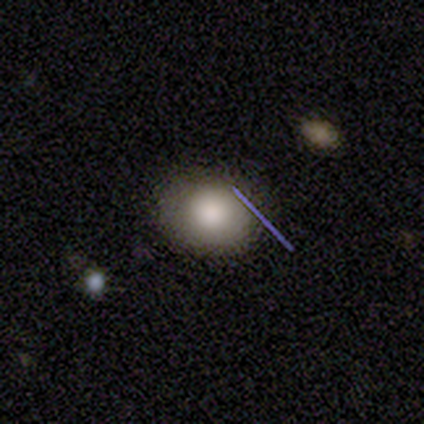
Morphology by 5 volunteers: A smooth galaxy with no disk features (100%) that is round (80%). Merging: none (100%).